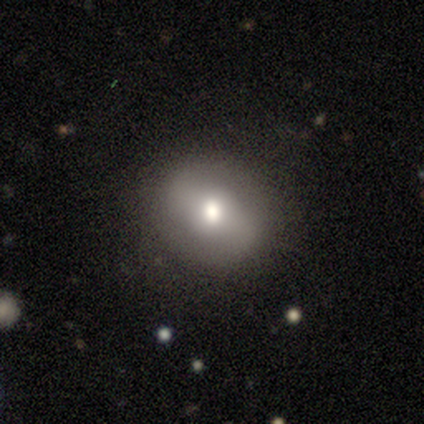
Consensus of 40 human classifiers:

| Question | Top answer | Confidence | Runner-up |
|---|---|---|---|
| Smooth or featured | smooth | 55% | featured or disk (40%) |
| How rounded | round | 73% | in between (27%) |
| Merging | none | 84% | minor disturbance (8%) |